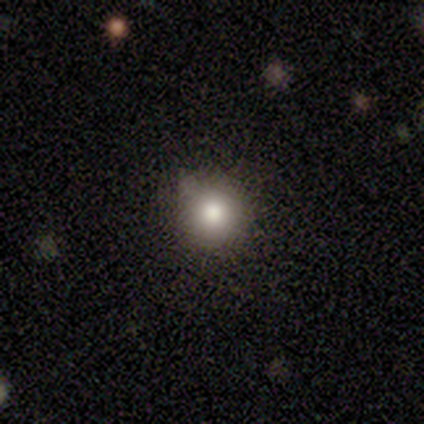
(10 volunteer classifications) Overall: smooth (40%, tied with star or artifact). How rounded: round (100%). Merging: none (67%).